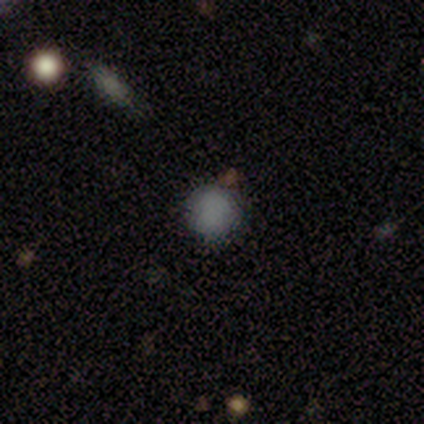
Volunteers were most divided on "smooth or featured": smooth: 80%, star or artifact: 20%, featured or disk: 0%. More confident: how rounded — round (100%); merging — none (88%).